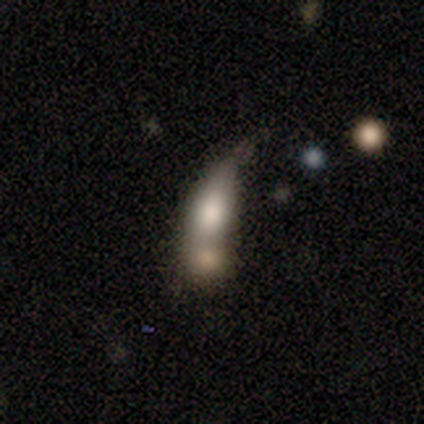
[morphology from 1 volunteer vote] Consensus on every question: smooth or featured — smooth (100%); how rounded — in between (100%); merging — minor disturbance (100%).